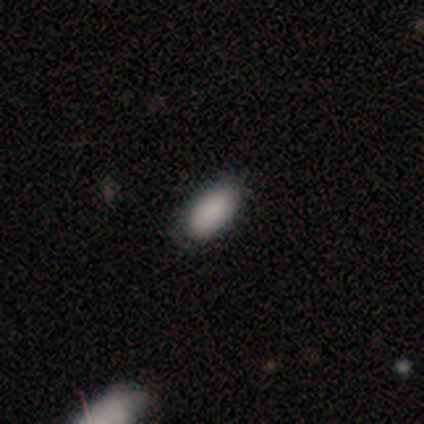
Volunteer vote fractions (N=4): Smooth or featured? smooth (75%)
How rounded? in between (100%)
Merging? none (75%)